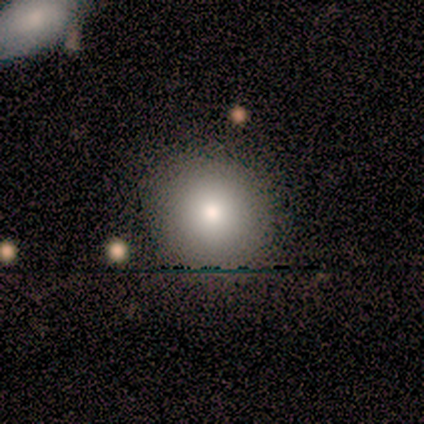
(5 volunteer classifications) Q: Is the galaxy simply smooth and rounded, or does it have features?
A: smooth — 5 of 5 (100%).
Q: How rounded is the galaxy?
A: round — 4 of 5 (80%).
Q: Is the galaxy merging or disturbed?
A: none — 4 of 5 (80%).